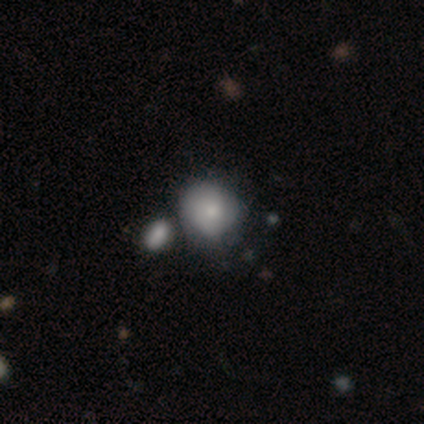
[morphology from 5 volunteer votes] A smooth galaxy with no disk features (100%) that is round (100%). Merging: none (60%).